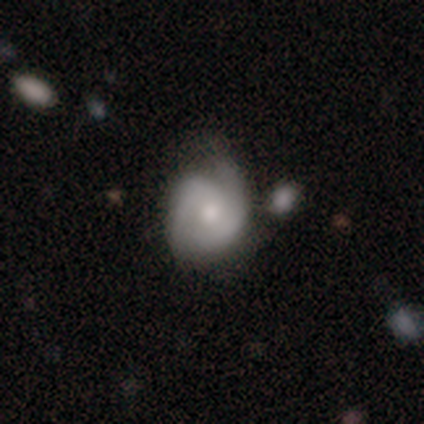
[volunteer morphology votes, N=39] This is possibly a featured or disk galaxy (56%). It is clearly not viewed edge-on (95%). Bar: likely no (62%). Spiral arm pattern: clearly yes (90%). Spiral arm count: clearly 2 (89%). Spiral winding: possibly tight (53%). Central bulge: possibly moderate (57%). Merging: possibly none (46%).